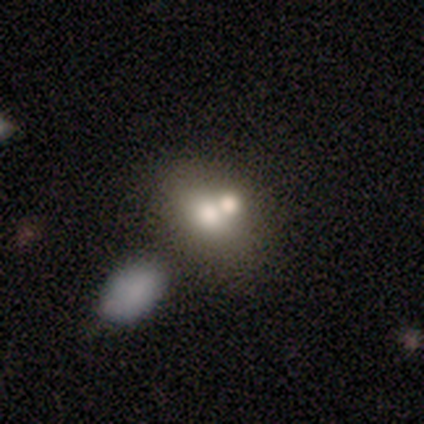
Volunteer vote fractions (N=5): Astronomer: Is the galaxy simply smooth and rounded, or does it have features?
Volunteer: smooth — 80%.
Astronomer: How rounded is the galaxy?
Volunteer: round — 50%, tied with in between at 50%.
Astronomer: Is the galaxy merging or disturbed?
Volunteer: merger — 80%.